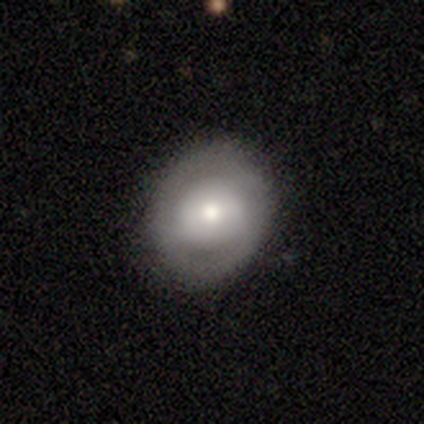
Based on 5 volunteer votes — Morphology: type=smooth (60%); roundness=round (100%); merging=none (100%).